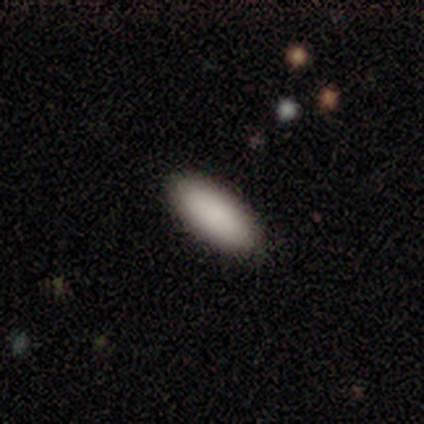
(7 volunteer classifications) A smooth galaxy with no disk features (86%) that is in between round and cigar-shaped (100%).

Vote fractions:
- Smooth or featured? smooth: 86% / featured or disk: 14% / star or artifact: 0%
- How rounded? in between: 100% / round: 0% / cigar-shaped: 0%
- Merging? none: 86% / minor disturbance: 14% / major disturbance: 0% / merger: 0%